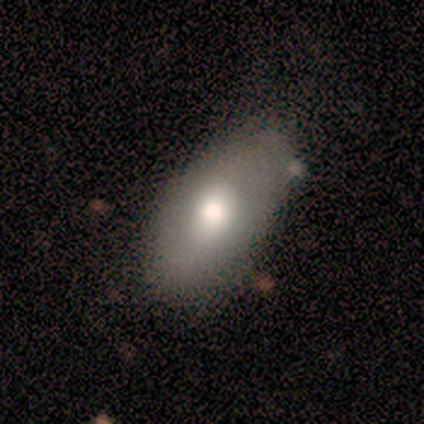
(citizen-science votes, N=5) smooth 60%, featured or disk 40%, star or artifact 0%. Down the decision tree: how rounded — in between (100%); merging — none (60%).